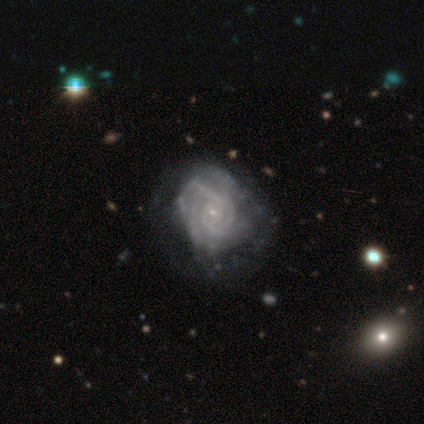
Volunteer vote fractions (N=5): This appears to be a featured or disk galaxy (100%) with no bar (60%), 3 (50%, tied with can't tell) tight (50%) spiral arms (80%) and a small central bulge (100%). Merging: none (80%).